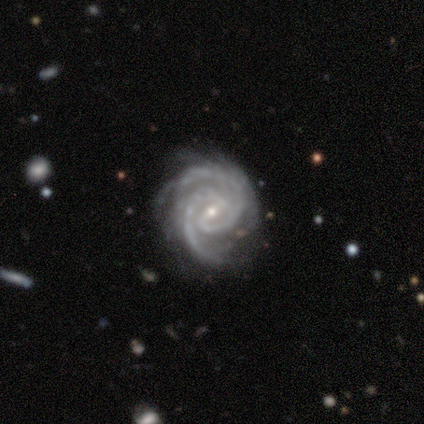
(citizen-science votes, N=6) Smooth or featured? featured or disk (100%)
Edge-on disk? no (100%)
Bar? weak (50%)
Spiral arms? yes (100%)
Spiral winding? tight (100%)
Spiral arm count? 2 (83%)
Bulge size? moderate (50%, tied with small)
Merging? none (67%)